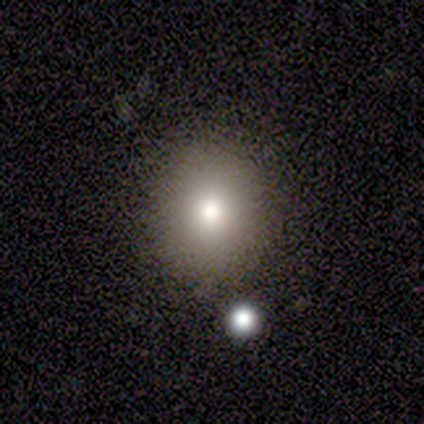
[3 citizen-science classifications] smooth-or-featured: smooth: 100% | featured or disk: 0% | star or artifact: 0%
  how-rounded: round: 67% | in between: 33% | cigar-shaped: 0%
  merging: none: 33% (tied) | major disturbance: 33% (tied) | merger: 33% (tied) | minor disturbance: 0%